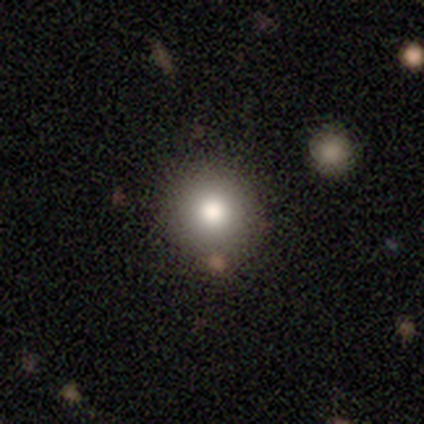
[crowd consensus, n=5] Smooth or featured? smooth (80%)
How rounded? round (100%)
Merging? none (80%)